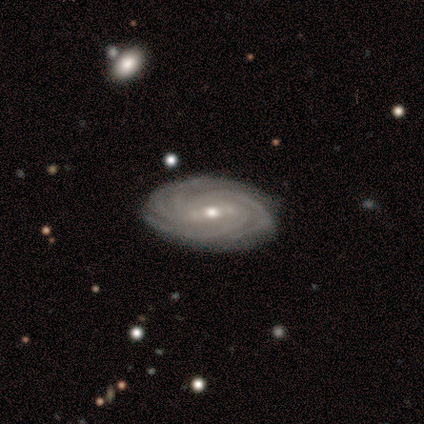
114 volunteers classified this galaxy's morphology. Smooth or featured? 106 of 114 (93%) said featured or disk. Edge-on disk? 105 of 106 (99%) said no. Bar? 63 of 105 (60%) said weak. Spiral arms? 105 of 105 (100%) said yes. Spiral winding? 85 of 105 (81%) said tight. Spiral arm count? 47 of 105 (45%) said 4. Bulge size? 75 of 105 (71%) said moderate. Merging? 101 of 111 (91%) said none.